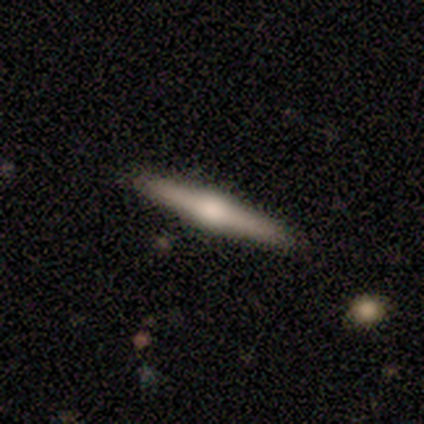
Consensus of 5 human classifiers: A featured or disk galaxy (60%) viewed edge-on (100%) with a rounded central bulge (100%).

Vote fractions:
- Smooth or featured? featured or disk: 60% / smooth: 40% / star or artifact: 0%
- Edge-on disk? yes: 100% / no: 0%
- Edge-on bulge? rounded: 100% / boxy: 0% / none: 0%
- Merging? none: 100% / minor disturbance: 0% / major disturbance: 0% / merger: 0%